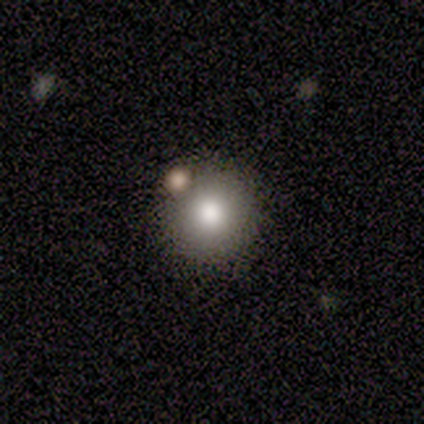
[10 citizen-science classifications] Smooth or featured: smooth — 70% (star or artifact — 20%)
How rounded: round — 100%
Merging: none — 88% (merger — 12%)